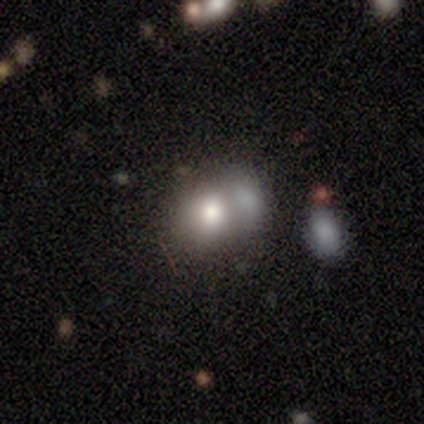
This is likely a smooth galaxy (60%). How rounded: clearly round (100%). Merging: clearly merger (100%).